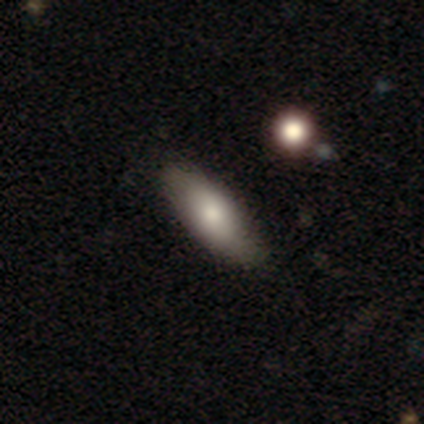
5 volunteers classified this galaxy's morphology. type=smooth (80%); roundness=in between (100%); merging=none (80%).